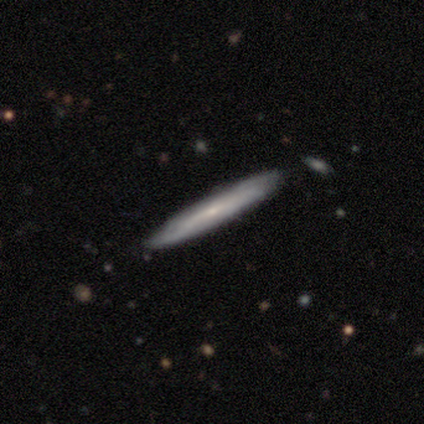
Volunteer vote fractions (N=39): Smooth or featured: featured or disk — 54% (smooth — 38%)
Edge-on disk: yes — 76% (no — 24%)
Edge-on bulge: none — 81% (rounded — 19%)
Merging: none — 92% (minor disturbance — 3%)